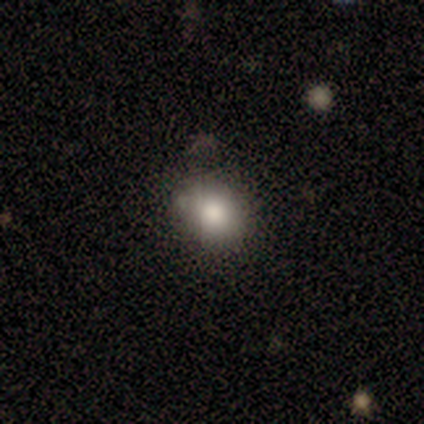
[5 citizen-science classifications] Q: Smooth or featured?
A: smooth (100%)
Q: How rounded?
A: in between (60%); runner-up: round (40%)
Q: Merging?
A: none (60%); runner-up: minor disturbance (20%)